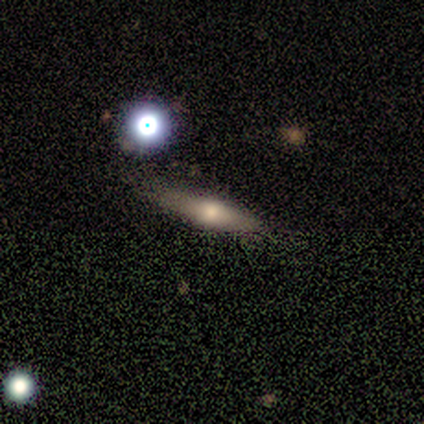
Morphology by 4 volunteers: Overall: smooth (75%). How rounded: cigar-shaped (67%; in between 33%). Merging: none (100%).